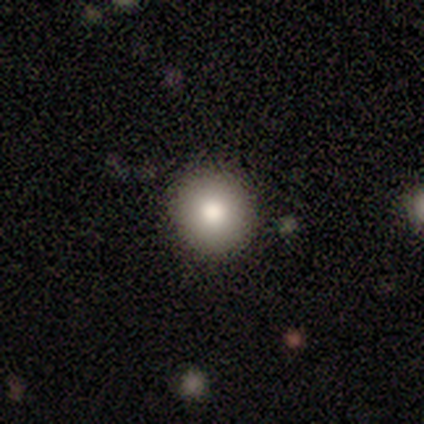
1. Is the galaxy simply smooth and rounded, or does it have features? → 78% smooth, 12% star or artifact, 10% featured or disk.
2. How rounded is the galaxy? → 97% round, 3% in between, 0% cigar-shaped.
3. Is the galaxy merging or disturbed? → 97% none, 3% minor disturbance, 0% major disturbance, 0% merger.